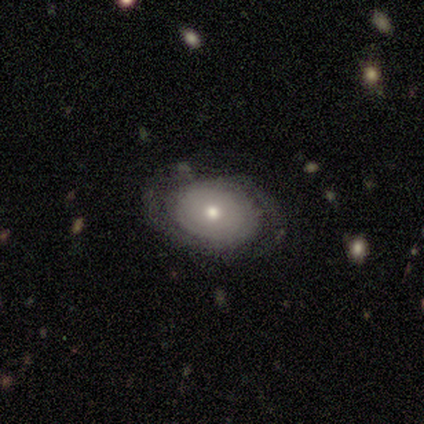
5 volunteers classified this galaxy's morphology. type=featured or disk (100%); edge-on=no (100%); bar=no (80%); spiral arms=yes (60%); winding=tight (33%, tied with medium and loose); arm count=2 (100%); bulge=moderate (80%); merging=none (80%).